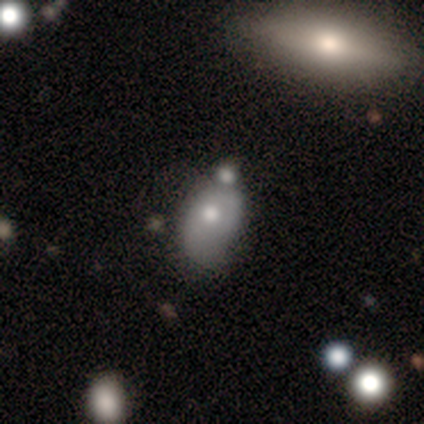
This is likely a smooth galaxy (65%). How rounded: clearly in between (96%). Merging: marginally minor disturbance (44%).